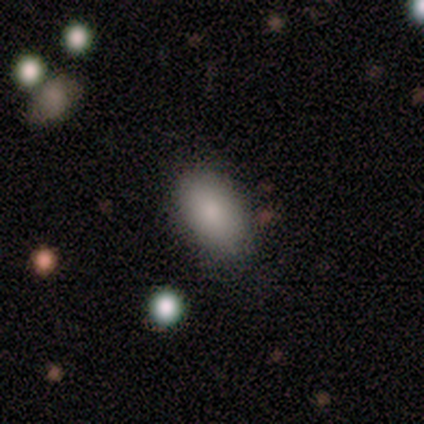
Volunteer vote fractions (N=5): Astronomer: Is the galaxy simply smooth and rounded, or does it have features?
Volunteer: smooth — 80%.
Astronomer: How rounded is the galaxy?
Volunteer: in between — 100%.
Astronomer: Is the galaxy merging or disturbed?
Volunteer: none — 60% (runner-up: minor disturbance, 40%).